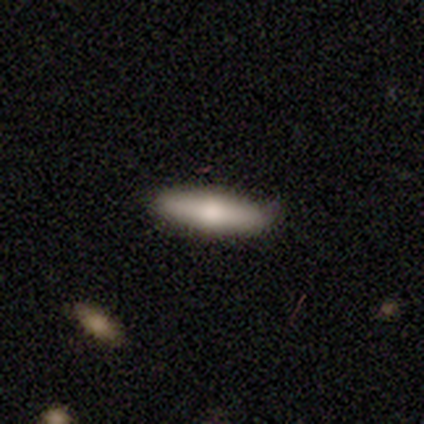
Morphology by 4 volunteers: smooth-or-featured: smooth: 50% (tied) | featured or disk: 50% (tied) | star or artifact: 0%
  how-rounded: in between: 50% (tied) | cigar-shaped: 50% (tied) | round: 0%
  merging: none: 100% | minor disturbance: 0% | major disturbance: 0% | merger: 0%